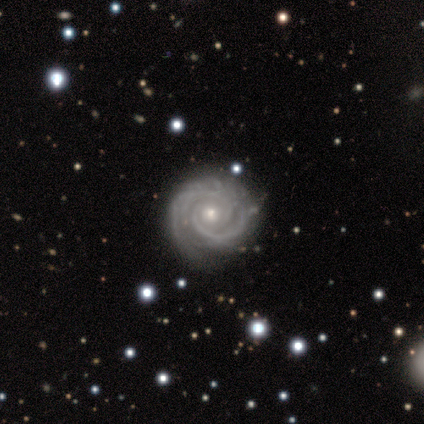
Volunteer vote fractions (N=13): This is clearly a featured or disk galaxy (85%). It is clearly not viewed edge-on (100%). Bar: likely no (73%). Spiral arm pattern: clearly yes (100%). Spiral arm count: clearly 2 (82%). Spiral winding: clearly tight (82%). Central bulge: clearly small (82%). Merging: clearly none (92%).